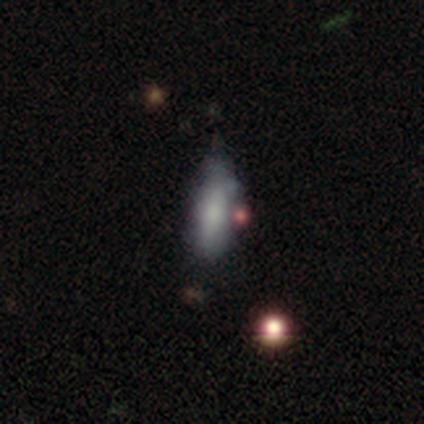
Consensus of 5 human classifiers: smooth-or-featured: smooth: 60% | featured or disk: 40% | star or artifact: 0%
  how-rounded: cigar-shaped: 100% | round: 0% | in between: 0%
  merging: minor disturbance: 60% | none: 20% | merger: 20% | major disturbance: 0%